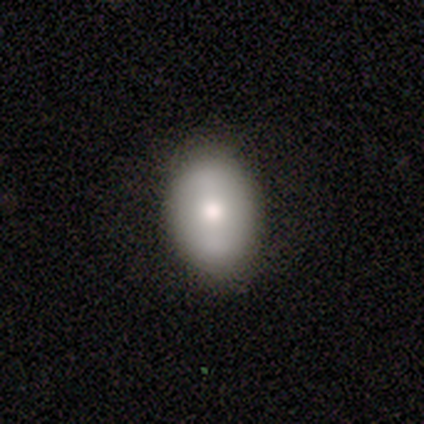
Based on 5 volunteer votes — Smooth or featured: smooth — 60% (featured or disk — 20%)
How rounded: in between — 67% (round — 33%)
Merging: none — 100%